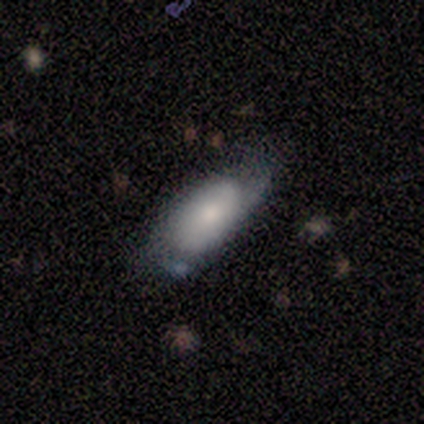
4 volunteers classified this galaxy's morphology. type=smooth (100%); roundness=in between (75%); merging=minor disturbance (100%).